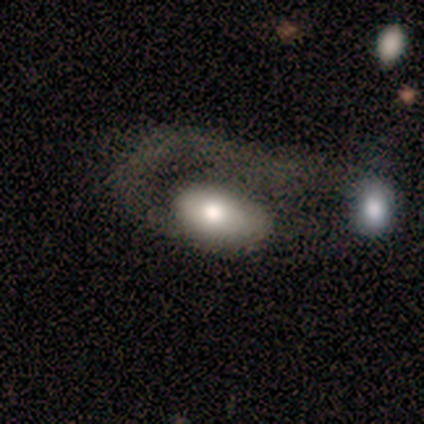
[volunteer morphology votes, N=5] smooth_or_featured: smooth (p=0.60) [alt: featured or disk p=0.20]
how_rounded: in between (p=1.00)
merging: merger (p=0.75) [alt: major disturbance p=0.25]